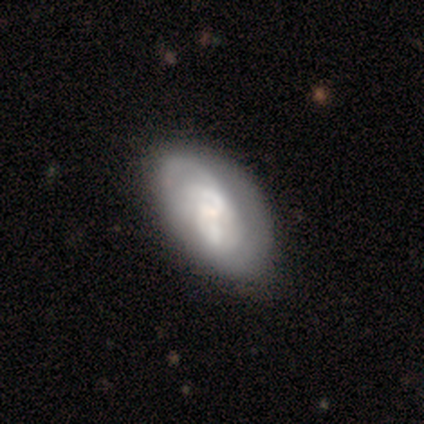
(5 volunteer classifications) A featured or disk galaxy (40%, tied with star or artifact) with a strong bar (50%, tied with no), tight (100%) spiral arms (100%) and a small central bulge (100%).

Vote fractions:
- Smooth or featured? featured or disk: 40% (tied) / star or artifact: 40% (tied) / smooth: 20%
- Edge-on disk? no: 100% / yes: 0%
- Bar? strong: 50% (tied) / no: 50% (tied) / weak: 0%
- Spiral arms? yes: 100% / no: 0%
- Spiral winding? tight: 100% / medium: 0% / loose: 0%
- Spiral arm count? can't tell: 100% / 1: 0% / 2: 0% / 3: 0% / 4: 0% / more than 4: 0%
- Bulge size? small: 100% / dominant: 0% / large: 0% / moderate: 0% / none: 0%
- Merging? none: 67% / merger: 33% / minor disturbance: 0% / major disturbance: 0%